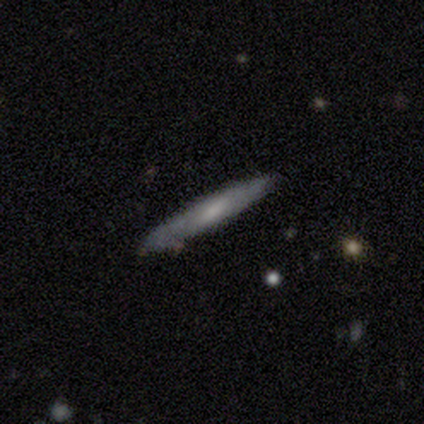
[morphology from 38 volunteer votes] Smooth or featured? 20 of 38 (53%) said featured or disk. Edge-on disk? 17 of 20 (85%) said yes. Edge-on bulge? 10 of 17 (59%) said none. Merging? 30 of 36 (83%) said none.